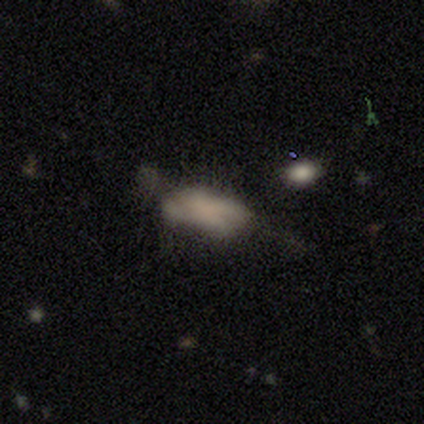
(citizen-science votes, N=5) smooth_or_featured: smooth (p=1.00)
how_rounded: in between (p=0.80) [alt: cigar-shaped p=0.20]
merging: minor disturbance (p=0.60) [alt: none p=0.20]